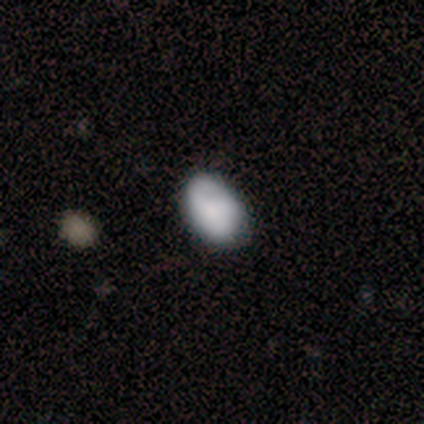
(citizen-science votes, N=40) Morphology: type=smooth (70%); roundness=in between (79%); merging=none (50%).